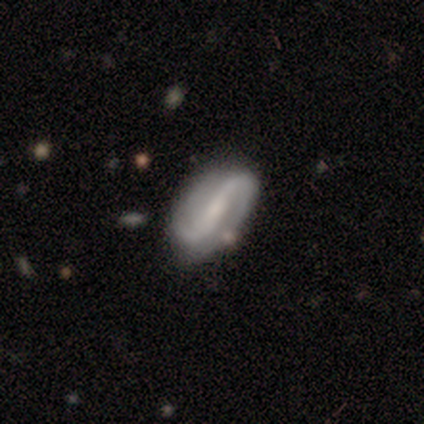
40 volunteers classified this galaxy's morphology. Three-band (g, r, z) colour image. It shows a featured or disk galaxy (78%) with a strong bar (52%), 2 (100%) loose (52%) spiral arms (94%) and a small central bulge (55%). Merging: none (66%).